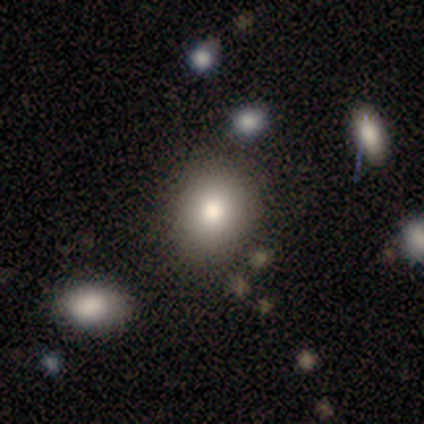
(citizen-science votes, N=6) smooth_or_featured: smooth (p=0.83) [alt: star or artifact p=0.17]
how_rounded: in between (p=0.60) [alt: round p=0.40]
merging: none (p=0.80) [alt: major disturbance p=0.20]